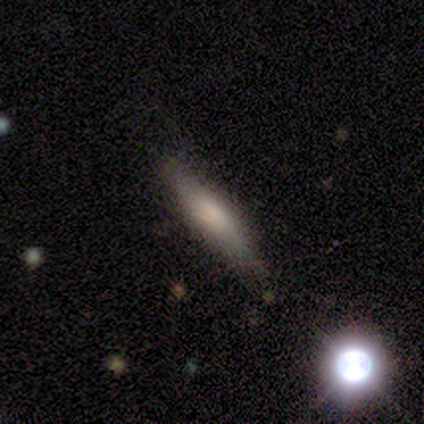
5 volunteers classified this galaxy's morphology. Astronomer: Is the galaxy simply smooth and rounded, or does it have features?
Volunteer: smooth — 40%, tied with featured or disk at 40%.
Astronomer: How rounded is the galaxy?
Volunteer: cigar-shaped — 100%.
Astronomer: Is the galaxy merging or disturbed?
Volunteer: none — 75%.